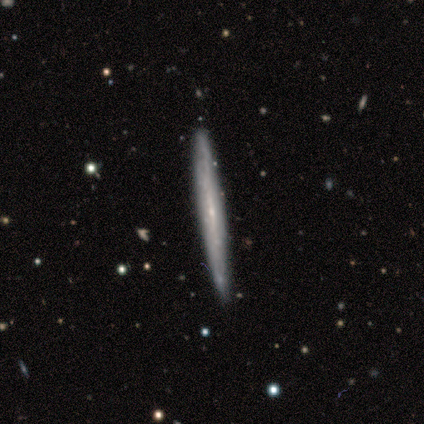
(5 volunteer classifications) A featured or disk galaxy (60%) viewed edge-on (100%) with no central bulge (67%). Merging: none (80%).